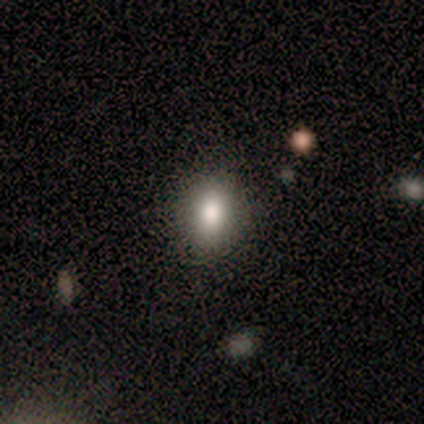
Morphology: type=smooth (80%); roundness=round (50%, tied with in between); merging=none (75%).